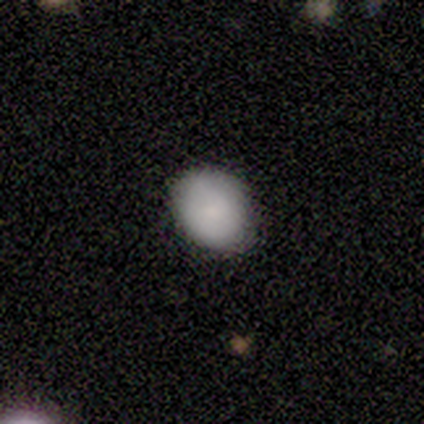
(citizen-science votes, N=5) smooth 100%, featured or disk 0%, star or artifact 0%. Down the decision tree: how rounded — round (60%); merging — none (80%).